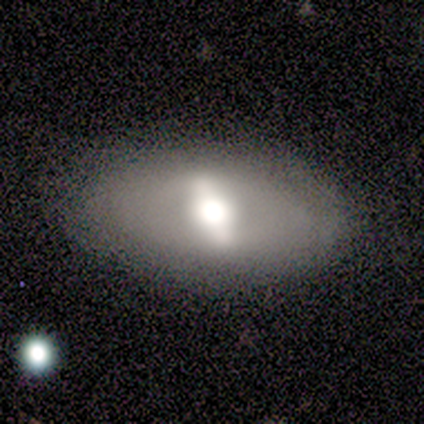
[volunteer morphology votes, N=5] A smooth galaxy with no disk features (60%) that is in between round and cigar-shaped (67%). Merging: none (80%).